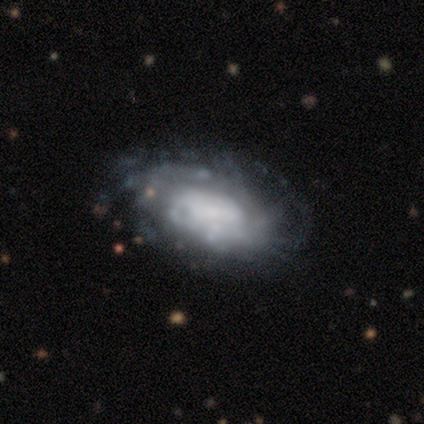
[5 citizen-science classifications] featured or disk 100%, smooth 0%, star or artifact 0%. Down the decision tree: edge-on disk — no (100%); bar — no (100%); spiral arms — yes (80%); spiral arm count — can't tell (75%); spiral winding — tight (50%, tied with medium); bulge size — none (40%); merging — minor disturbance (40%).